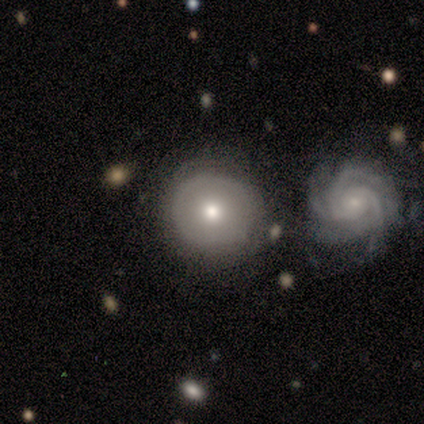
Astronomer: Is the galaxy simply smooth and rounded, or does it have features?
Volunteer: smooth — 80%.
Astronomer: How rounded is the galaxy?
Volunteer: round — 100%.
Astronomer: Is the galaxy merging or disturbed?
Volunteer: none — 80%.